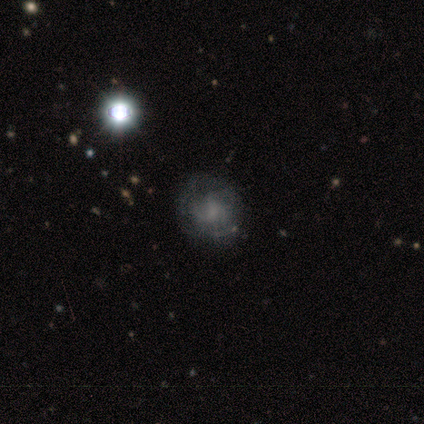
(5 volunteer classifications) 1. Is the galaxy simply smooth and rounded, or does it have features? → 60% featured or disk, 20% smooth, 20% star or artifact.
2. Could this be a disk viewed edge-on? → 100% no, 0% yes.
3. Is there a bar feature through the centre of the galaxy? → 67% no, 33% strong, 0% weak.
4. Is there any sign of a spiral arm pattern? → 67% no, 33% yes.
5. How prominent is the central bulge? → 67% small, 33% none, 0% dominant, 0% large, 0% moderate.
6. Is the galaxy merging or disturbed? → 75% none, 25% major disturbance, 0% minor disturbance, 0% merger.